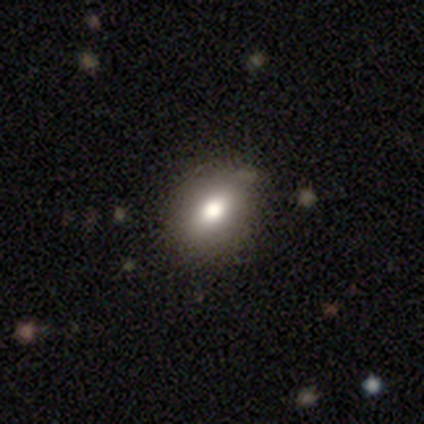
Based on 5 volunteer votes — A smooth galaxy with no disk features (80%) that is in between round and cigar-shaped (100%).

Vote fractions:
- Smooth or featured? smooth: 80% / star or artifact: 20% / featured or disk: 0%
- How rounded? in between: 100% / round: 0% / cigar-shaped: 0%
- Merging? none: 100% / minor disturbance: 0% / major disturbance: 0% / merger: 0%